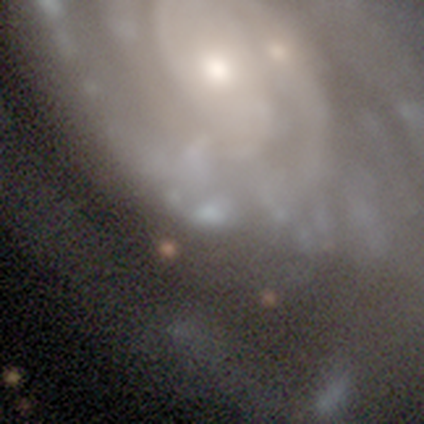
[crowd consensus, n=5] This is clearly a featured or disk galaxy (80%). It is clearly not viewed edge-on (100%). Bar: clearly no (100%). Spiral arm pattern: possibly yes (50%, tied with no). Spiral arm count: clearly can't tell (100%). Spiral winding: clearly tight (100%). Central bulge: likely none (75%). Merging: possibly none (50%).